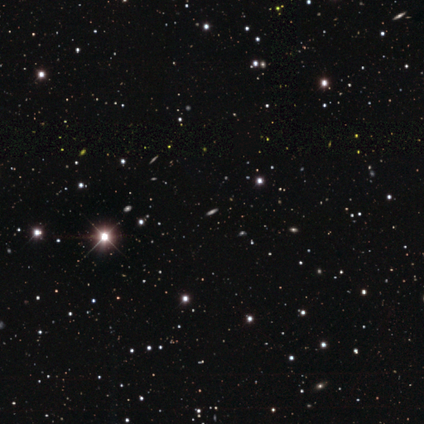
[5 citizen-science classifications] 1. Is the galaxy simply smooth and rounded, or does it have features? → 60% star or artifact, 20% smooth, 20% featured or disk.